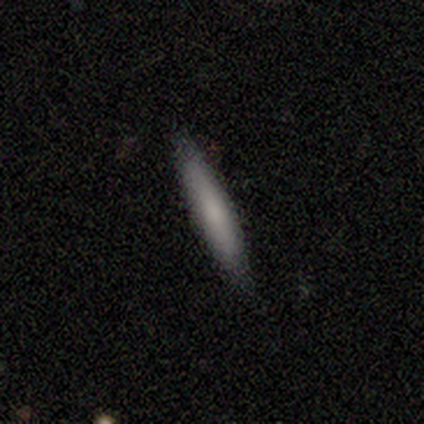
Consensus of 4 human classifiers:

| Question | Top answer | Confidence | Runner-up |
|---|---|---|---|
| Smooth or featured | smooth | 75% | featured or disk (25%) |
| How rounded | cigar-shaped | 67% | in between (33%) |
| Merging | none | 75% | minor disturbance (25%) |